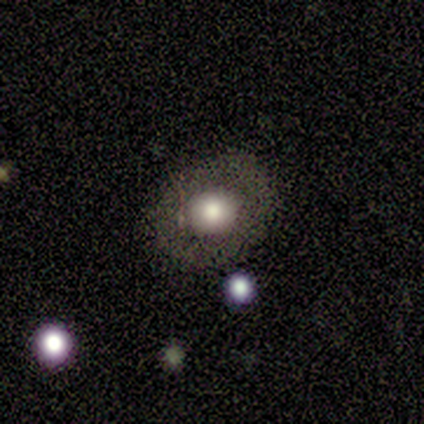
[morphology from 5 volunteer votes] A featured or disk galaxy (60%) with no bar (100%), no spiral arms (100%) and a large central bulge (67%). Merging: none (100%).